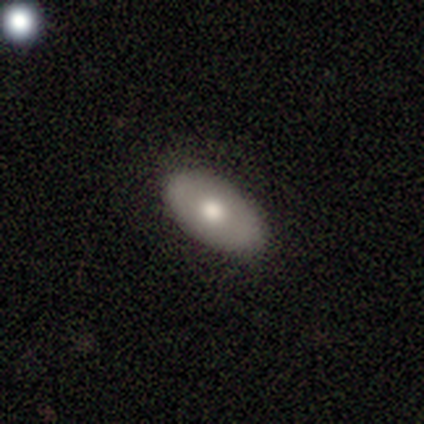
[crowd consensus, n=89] Smooth or featured? smooth (63%)
How rounded? in between (91%)
Merging? none (90%)